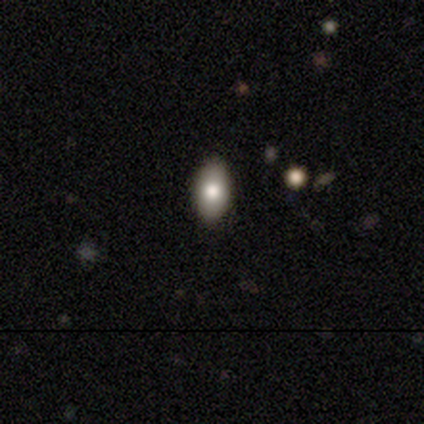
A smooth galaxy with no disk features (60%) that is in between round and cigar-shaped (100%).

Vote fractions:
- Smooth or featured? smooth: 60% / featured or disk: 40% / star or artifact: 0%
- How rounded? in between: 100% / round: 0% / cigar-shaped: 0%
- Merging? none: 100% / minor disturbance: 0% / major disturbance: 0% / merger: 0%